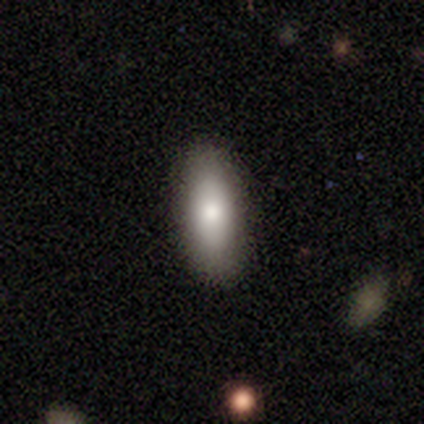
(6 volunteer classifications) Morphology: type=smooth (83%); roundness=in between (80%); merging=none (100%).